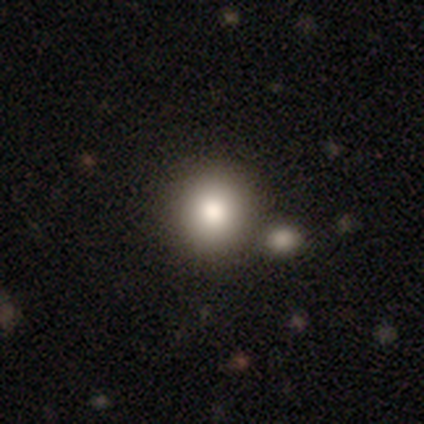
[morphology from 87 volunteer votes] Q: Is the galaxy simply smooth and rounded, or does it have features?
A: smooth — 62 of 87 (71%).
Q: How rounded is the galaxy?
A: round — 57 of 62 (92%).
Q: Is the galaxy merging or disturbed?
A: none — 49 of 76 (64%).